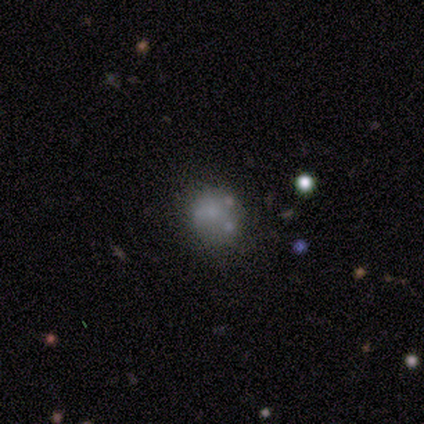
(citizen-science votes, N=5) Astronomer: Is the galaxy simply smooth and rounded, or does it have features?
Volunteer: smooth — 60%.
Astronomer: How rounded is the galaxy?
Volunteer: round — 67%.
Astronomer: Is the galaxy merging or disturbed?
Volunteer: none — 100%.